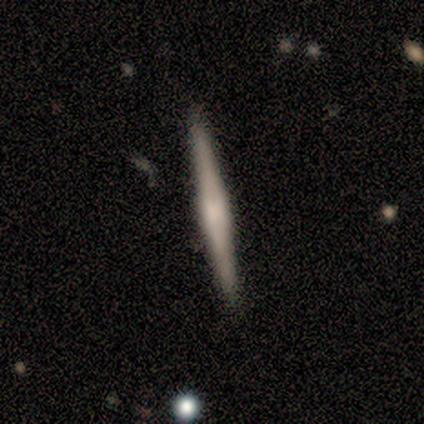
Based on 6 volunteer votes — This appears to be a featured or disk galaxy (67%) viewed edge-on (100%) with a boxy central bulge (50%). Merging: none (100%).